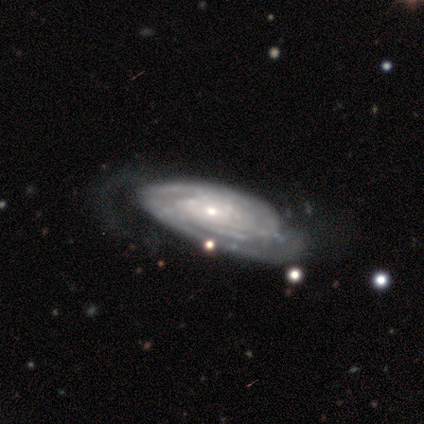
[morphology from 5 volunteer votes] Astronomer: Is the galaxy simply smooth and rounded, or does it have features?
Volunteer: featured or disk — 100%.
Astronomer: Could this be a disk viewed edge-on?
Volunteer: no — 100%.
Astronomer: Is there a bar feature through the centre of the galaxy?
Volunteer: no — 100%.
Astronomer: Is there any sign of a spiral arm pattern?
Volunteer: yes — 100%.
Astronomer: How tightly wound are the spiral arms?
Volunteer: tight — 80%.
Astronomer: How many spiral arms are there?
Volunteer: can't tell — 60%.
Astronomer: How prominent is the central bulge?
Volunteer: small — 80%.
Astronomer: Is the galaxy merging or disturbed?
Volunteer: none — 40%, tied with minor disturbance at 40%.